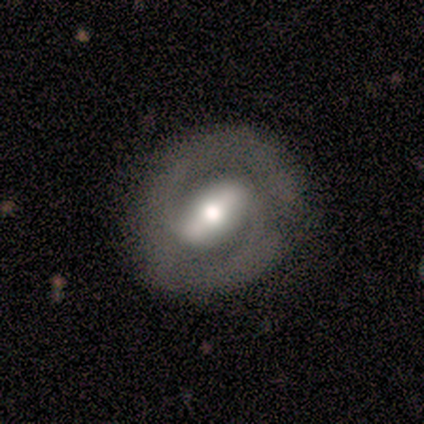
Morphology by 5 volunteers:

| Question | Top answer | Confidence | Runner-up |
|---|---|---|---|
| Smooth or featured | featured or disk | 100% | — |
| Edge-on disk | no | 100% | — |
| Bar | strong | 100% | — |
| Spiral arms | yes | 80% | no (20%) |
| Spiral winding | tight | 50% | tied: medium (50%) |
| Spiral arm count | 2 | 75% | can't tell (25%) |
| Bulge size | moderate | 80% | small (20%) |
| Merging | none | 80% | minor disturbance (20%) |